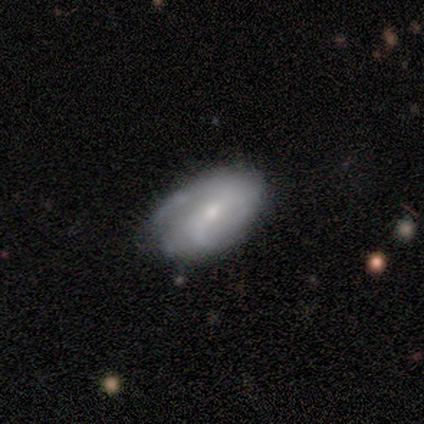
featured or disk 92%, smooth 8%, star or artifact 0%. Down the decision tree: edge-on disk — no (82%); bar — weak (67%); spiral arms — yes (100%); spiral arm count — 2 (44%); spiral winding — medium (56%); bulge size — moderate (56%); merging — none (75%).